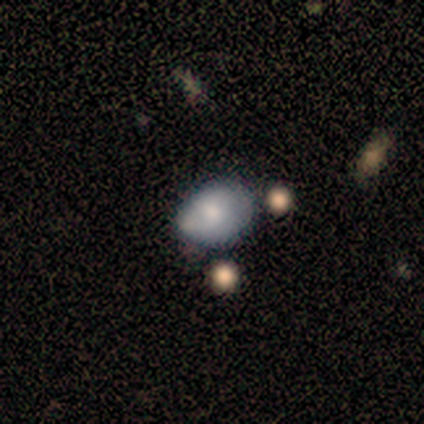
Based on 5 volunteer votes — smooth_or_featured: smooth (p=1.00)
how_rounded: in between (p=0.80) [alt: round p=0.20]
merging: minor disturbance (p=0.80) [alt: none p=0.20]